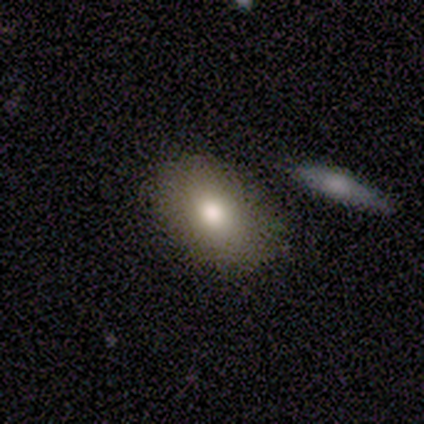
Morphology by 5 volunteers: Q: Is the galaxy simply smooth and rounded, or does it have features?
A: smooth — 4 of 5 (80%).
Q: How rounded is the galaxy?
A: in between — 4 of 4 (100%).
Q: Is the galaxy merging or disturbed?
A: none — 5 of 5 (100%).